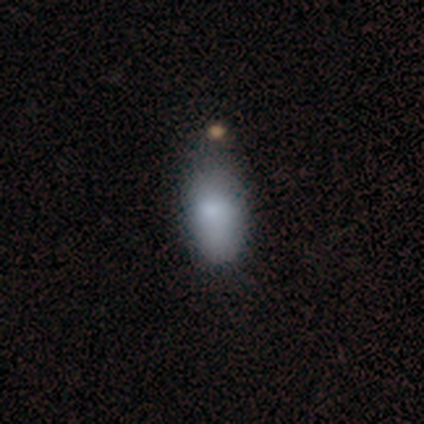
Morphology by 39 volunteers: Smooth or featured?
  - smooth: 79% *
  - featured or disk: 13%
  - star or artifact: 8%
How rounded?
  - in between: 97% *
  - cigar-shaped: 3%
  - round: 0%
Merging?
  - none: 39% *
  - minor disturbance: 17%
  - merger: 14%
  - major disturbance: 3%